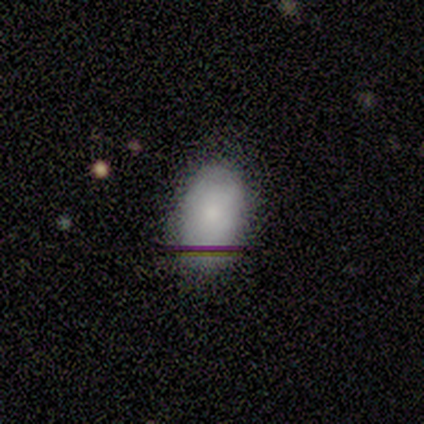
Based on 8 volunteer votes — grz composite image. It shows a smooth galaxy with no disk features (88%) that is in between round and cigar-shaped (100%). Merging: none (88%).